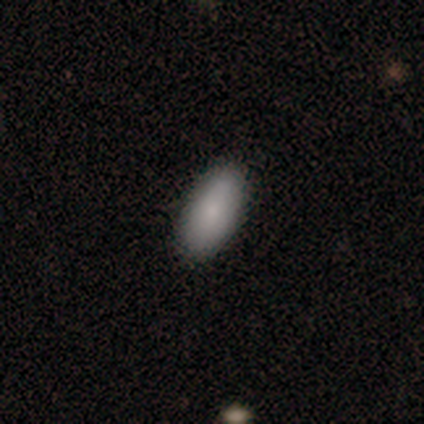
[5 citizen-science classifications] Smooth or featured?
  - smooth: 100% *
  - featured or disk: 0%
  - star or artifact: 0%
How rounded?
  - in between: 100% *
  - round: 0%
  - cigar-shaped: 0%
Merging?
  - none: 100% *
  - minor disturbance: 0%
  - major disturbance: 0%
  - merger: 0%